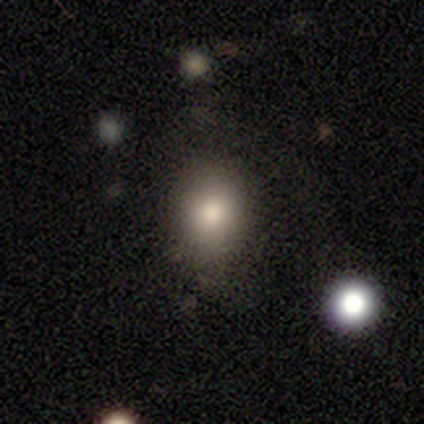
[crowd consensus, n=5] Volunteers were most divided on "smooth or featured" (2-way tie): smooth: 40%, star or artifact: 40%, featured or disk: 20%; "how rounded" (2-way tie): round: 50%, in between: 50%, cigar-shaped: 0%. More confident: merging — none (100%).